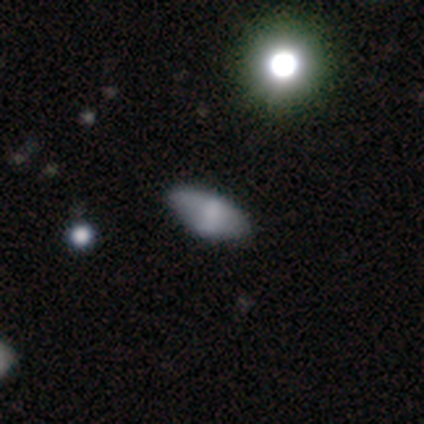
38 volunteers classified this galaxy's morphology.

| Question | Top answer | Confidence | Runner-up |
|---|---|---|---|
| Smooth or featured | smooth | 61% | featured or disk (29%) |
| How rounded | in between | 91% | cigar-shaped (9%) |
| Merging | none | 59% | minor disturbance (35%) |